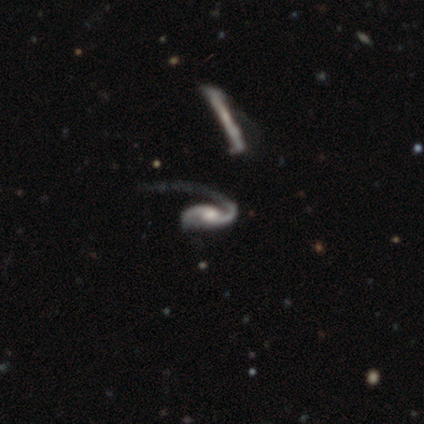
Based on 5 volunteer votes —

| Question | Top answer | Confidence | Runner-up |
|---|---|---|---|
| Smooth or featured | featured or disk | 100% | — |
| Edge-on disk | no | 80% | yes (20%) |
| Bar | no | 75% | strong (25%) |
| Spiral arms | yes | 100% | — |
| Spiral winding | loose | 100% | — |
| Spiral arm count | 1 | 50% | tied: 2 (50%) |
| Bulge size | moderate | 100% | — |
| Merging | minor disturbance | 40% | tied: major disturbance (40%) |